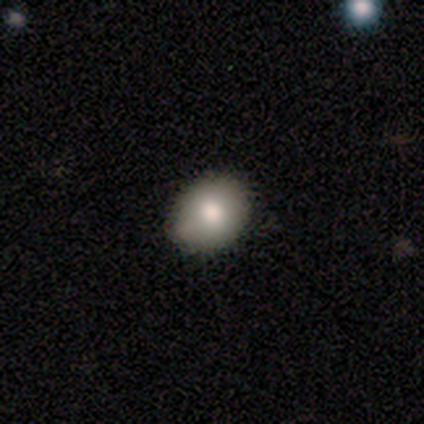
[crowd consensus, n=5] smooth-or-featured: smooth: 100% | featured or disk: 0% | star or artifact: 0%
  how-rounded: in between: 60% | round: 40% | cigar-shaped: 0%
  merging: none: 80% | minor disturbance: 20% | major disturbance: 0% | merger: 0%